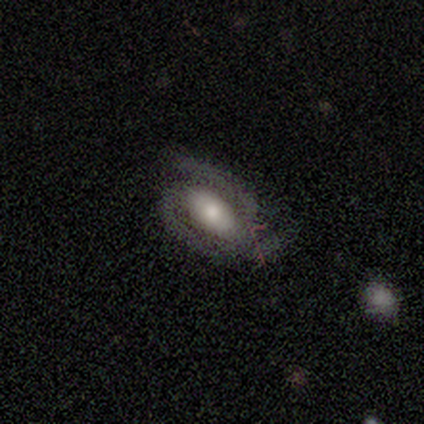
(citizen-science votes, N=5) featured or disk 100%, smooth 0%, star or artifact 0%. Down the decision tree: edge-on disk — no (100%); bar — no (80%); spiral arms — yes (100%); spiral arm count — 3 (60%); spiral winding — medium (80%); bulge size — moderate (40%, tied with small); merging — none (80%).